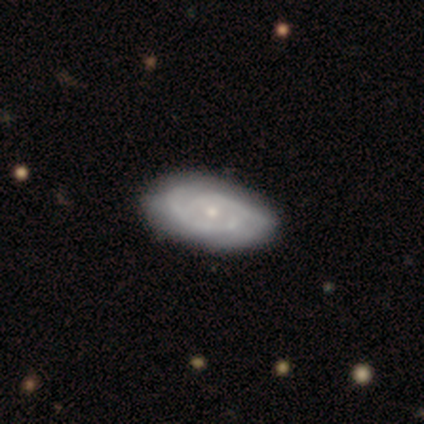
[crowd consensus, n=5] Smooth or featured: featured or disk — 80% (smooth — 20%)
Edge-on disk: no — 100%
Bar: no — 100%
Spiral arms: yes — 100%
Spiral winding: tight — 75% (medium — 25%)
Spiral arm count: 2 — 75% (can't tell — 25%)
Bulge size: small — 100%
Merging: none — 100%